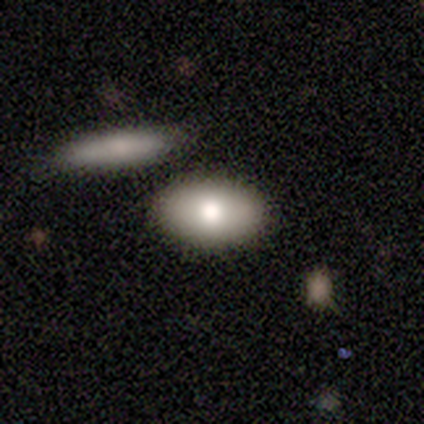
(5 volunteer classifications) This is clearly a smooth galaxy (100%). How rounded: clearly in between (100%). Merging: clearly none (80%).